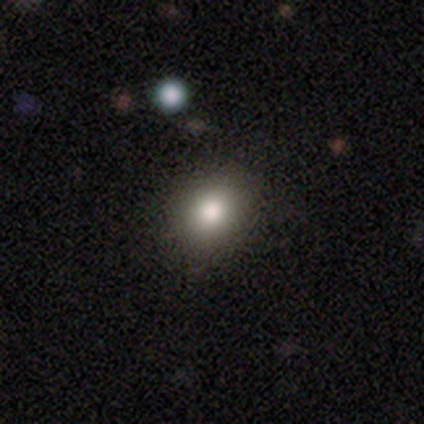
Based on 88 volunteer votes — A smooth galaxy with no disk features (76%) that is round (58%).

Vote fractions:
- Smooth or featured? smooth: 76% / star or artifact: 12% / featured or disk: 11%
- How rounded? round: 58% / in between: 40% / cigar-shaped: 1%
- Merging? none: 84% / minor disturbance: 10% / major disturbance: 3% / merger: 3%